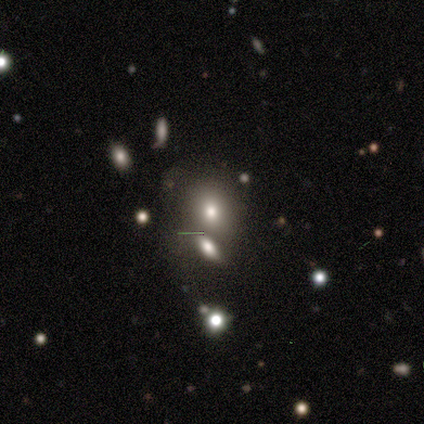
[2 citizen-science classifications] A smooth galaxy with no disk features (50%, tied with star or artifact) that is round (100%). Merging: none (100%).